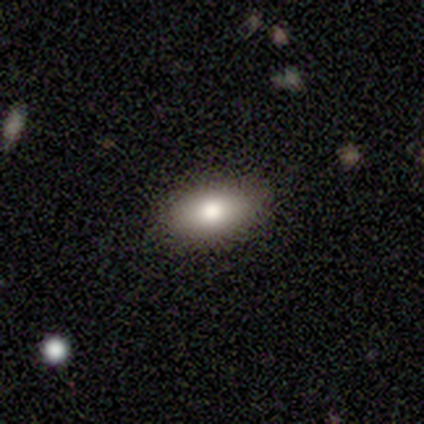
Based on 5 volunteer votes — This appears to be a smooth galaxy with no disk features (80%) that is in between round and cigar-shaped (100%). Merging: none (100%).